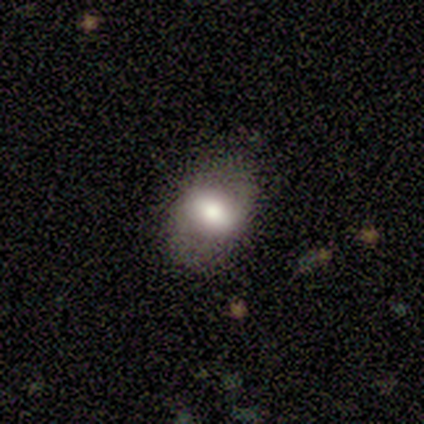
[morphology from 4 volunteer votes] smooth_or_featured: smooth (p=1.00)
how_rounded: in between (p=0.75) [alt: round p=0.25]
merging: none (p=1.00)